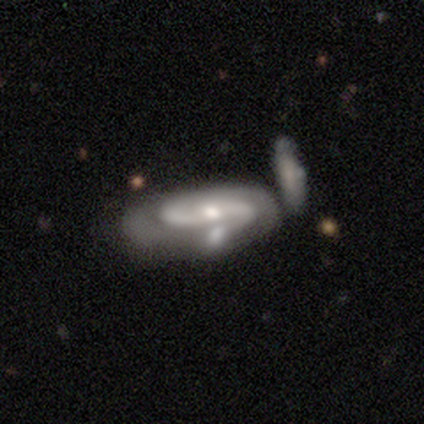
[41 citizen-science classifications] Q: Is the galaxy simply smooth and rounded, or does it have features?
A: featured or disk — 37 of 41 (90%).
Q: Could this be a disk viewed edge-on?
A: no — 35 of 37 (95%).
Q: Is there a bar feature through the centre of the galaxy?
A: no — 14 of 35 (40%).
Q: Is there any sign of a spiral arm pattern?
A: yes — 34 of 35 (97%).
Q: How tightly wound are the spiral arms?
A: medium — 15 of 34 (44%).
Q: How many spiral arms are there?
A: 2 — 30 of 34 (88%).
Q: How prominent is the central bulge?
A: moderate — 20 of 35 (57%).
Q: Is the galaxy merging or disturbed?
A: none — 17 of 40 (42%).